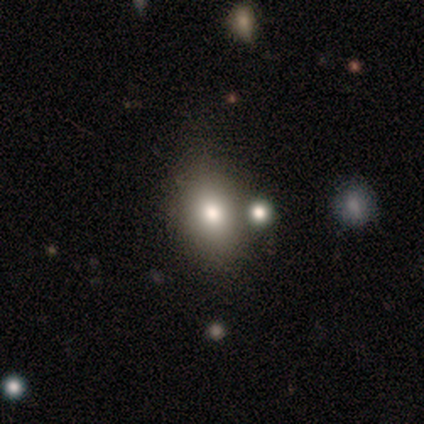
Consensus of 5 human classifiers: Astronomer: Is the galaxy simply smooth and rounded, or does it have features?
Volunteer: smooth — 80%.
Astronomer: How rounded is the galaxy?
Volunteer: in between — 100%.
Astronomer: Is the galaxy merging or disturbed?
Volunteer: none — 60% (runner-up: minor disturbance, 40%).